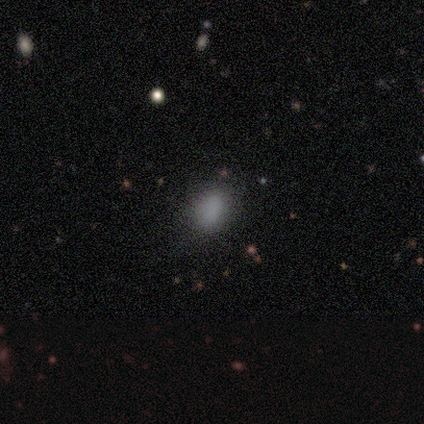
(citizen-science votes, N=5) Smooth or featured? smooth (60%)
How rounded? round (67%)
Merging? none (50%, tied with minor disturbance)